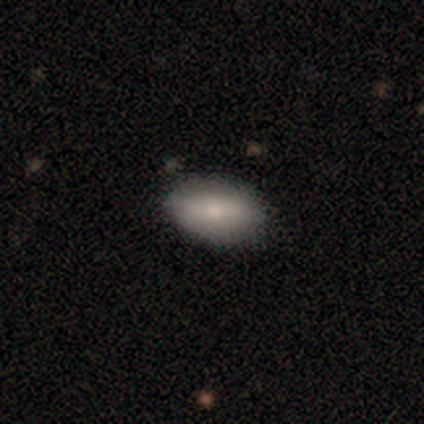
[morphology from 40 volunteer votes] Smooth or featured? smooth (82%)
How rounded? in between (85%)
Merging? none (79%)